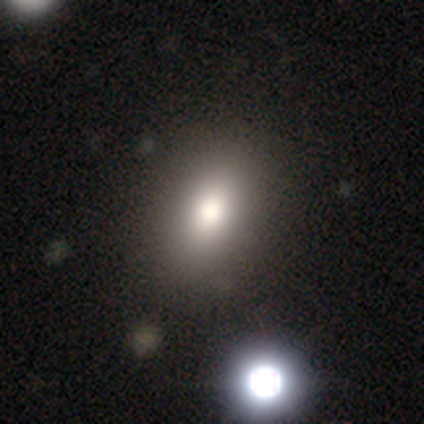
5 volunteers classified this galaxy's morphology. Q: Smooth or featured?
A: smooth (100%)
Q: How rounded?
A: in between (100%)
Q: Merging?
A: minor disturbance (60%); runner-up: none (40%)